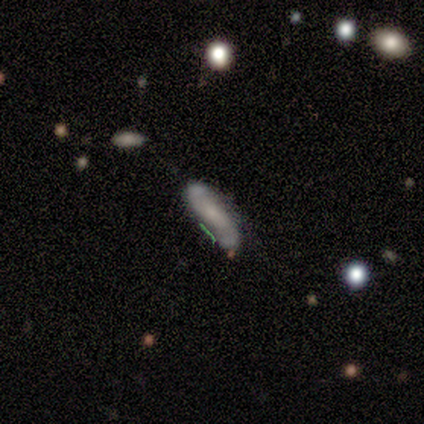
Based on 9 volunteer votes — Morphology: type=featured or disk (67%); edge-on=no (100%); bar=no (83%); spiral arms=yes (83%); winding=loose (80%); arm count=2 (100%); bulge=small (83%); merging=none (100%).